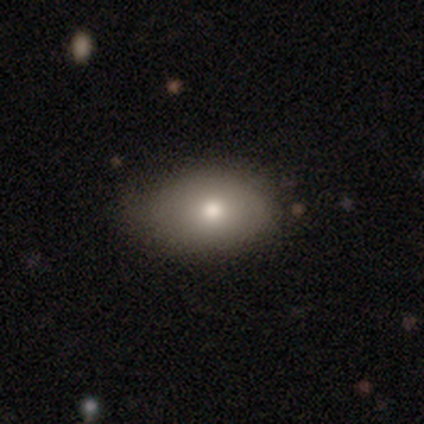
A smooth galaxy with no disk features (75%) that is in between round and cigar-shaped (88%).

Vote fractions:
- Smooth or featured? smooth: 75% / featured or disk: 17% / star or artifact: 8%
- How rounded? in between: 88% / round: 12% / cigar-shaped: 0%
- Merging? none: 76% / minor disturbance: 24% / major disturbance: 0% / merger: 0%